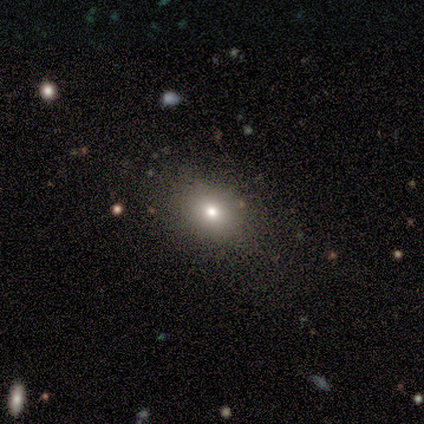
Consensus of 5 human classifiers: Volunteers were most divided on "smooth or featured" (2-way tie): smooth: 40%, featured or disk: 40%, star or artifact: 20%; "how rounded" (2-way tie): round: 50%, in between: 50%, cigar-shaped: 0%. More confident: merging — none (75%).